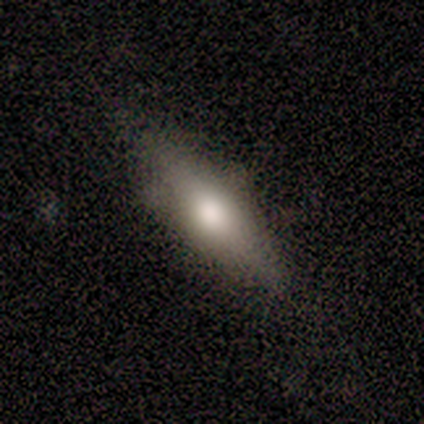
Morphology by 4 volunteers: smooth 100%, featured or disk 0%, star or artifact 0%. Down the decision tree: how rounded — cigar-shaped (75%); merging — none (100%).